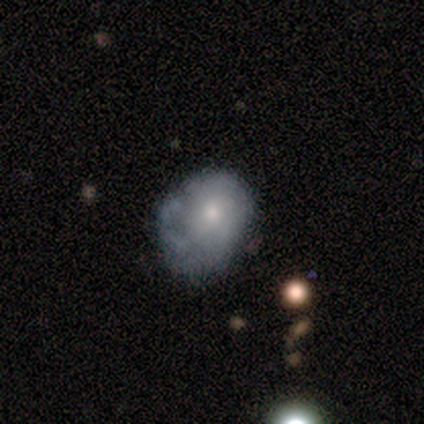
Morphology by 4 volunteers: Smooth or featured? smooth (75%)
How rounded? round (67%)
Merging? none (50%, tied with minor disturbance)